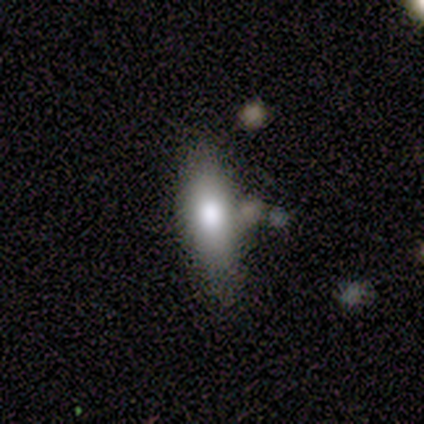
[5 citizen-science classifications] Smooth or featured: smooth — 80% (featured or disk — 20%)
How rounded: in between — 50% (tied with cigar-shaped — 50%)
Merging: minor disturbance — 60% (none — 20%)